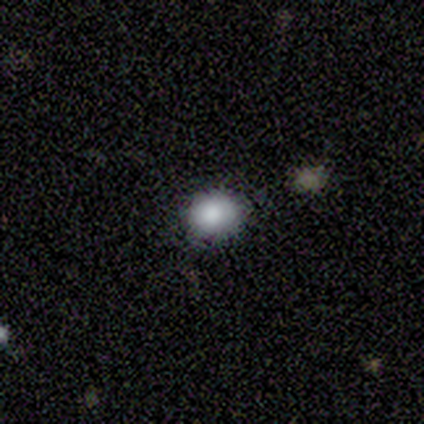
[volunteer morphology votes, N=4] This is likely a smooth galaxy (75%). How rounded: clearly round (100%). Merging: possibly none (50%, tied with minor disturbance).